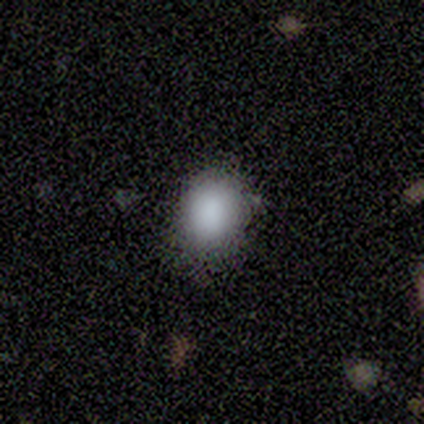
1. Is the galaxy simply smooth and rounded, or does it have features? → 79% smooth, 13% star or artifact, 8% featured or disk.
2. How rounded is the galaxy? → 52% in between, 48% round, 0% cigar-shaped.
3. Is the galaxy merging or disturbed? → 76% none, 18% minor disturbance, 3% major disturbance, 3% merger.